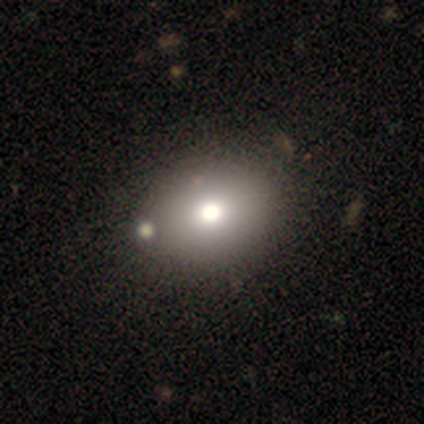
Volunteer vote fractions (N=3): Morphology: type=smooth (67%); roundness=round (50%, tied with in between); merging=none (100%).